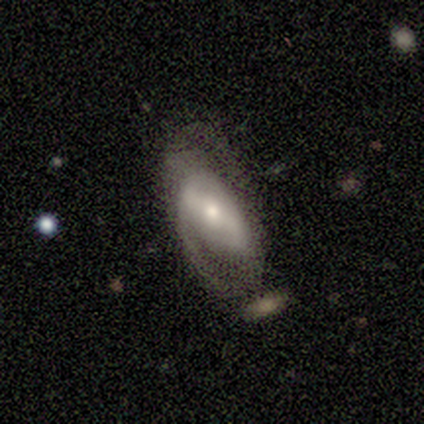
A smooth galaxy with no disk features (50%, tied with featured or disk) that is in between round and cigar-shaped (100%).

Vote fractions:
- Smooth or featured? smooth: 50% (tied) / featured or disk: 50% (tied) / star or artifact: 0%
- How rounded? in between: 100% / round: 0% / cigar-shaped: 0%
- Merging? none: 75% / merger: 25% / minor disturbance: 0% / major disturbance: 0%